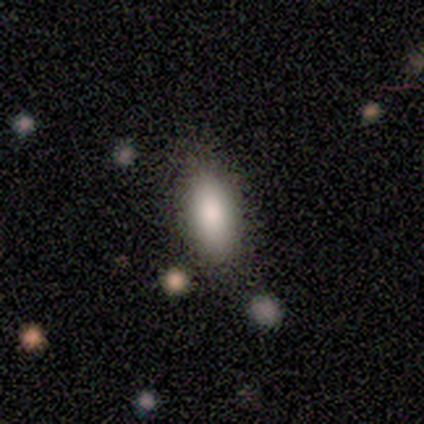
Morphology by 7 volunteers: This appears to be a smooth galaxy with no disk features (86%) that is in between round and cigar-shaped (83%). Merging: none (86%).